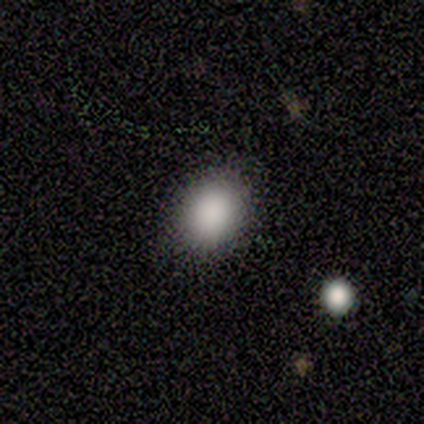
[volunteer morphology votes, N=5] A smooth galaxy with no disk features (80%) that is round (50%, tied with in between). Merging: none (80%).